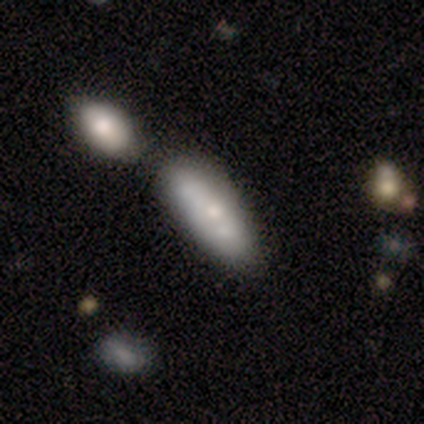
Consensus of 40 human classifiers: This appears to be a smooth galaxy with no disk features (57%) that is cigar-shaped (57%). Merging: merger (33%).